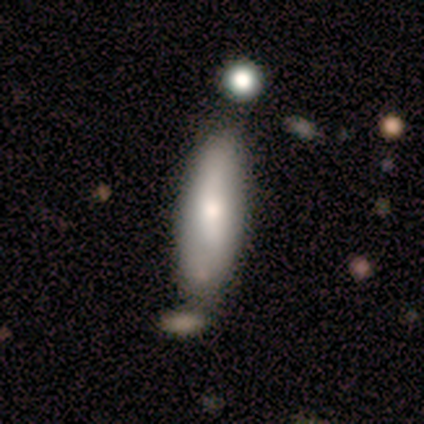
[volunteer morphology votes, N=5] A smooth galaxy with no disk features (60%) that is in between round and cigar-shaped (67%). Merging: none (75%).